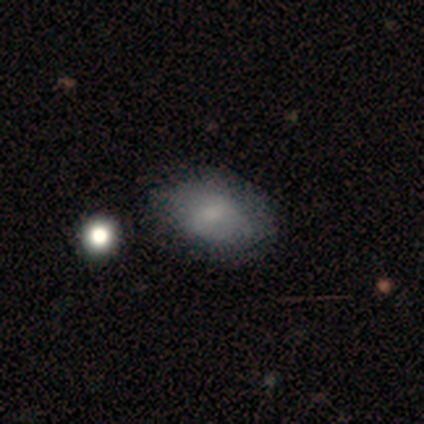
A smooth galaxy with no disk features (80%) that is in between round and cigar-shaped (100%). Merging: none (75%).